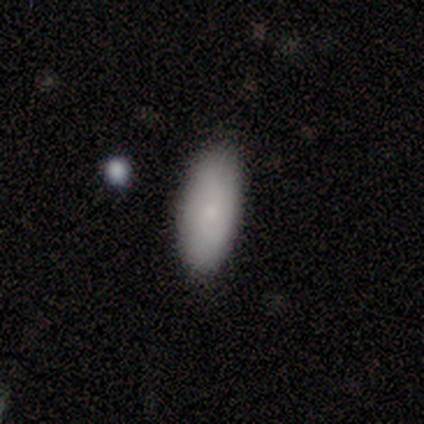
This is clearly a smooth galaxy (100%). How rounded: likely in between (60%). Merging: likely none (60%).